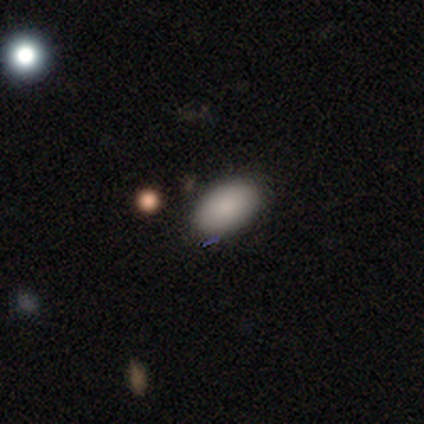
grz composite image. It shows a smooth galaxy with no disk features (100%) that is in between round and cigar-shaped (100%). Merging: none (100%).